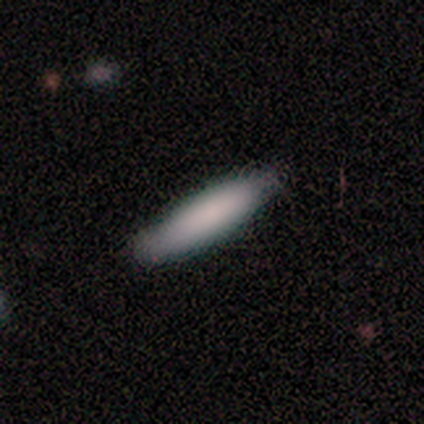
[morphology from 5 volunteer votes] Overall: smooth (100%). How rounded: cigar-shaped (80%). Merging: none (80%).